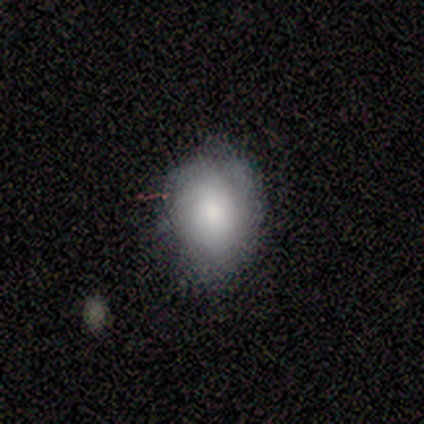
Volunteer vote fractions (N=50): A smooth galaxy with no disk features (62%) that is in between round and cigar-shaped (71%).

Vote fractions:
- Smooth or featured? smooth: 62% / featured or disk: 34% / star or artifact: 4%
- How rounded? in between: 71% / round: 29% / cigar-shaped: 0%
- Merging? none: 58% / minor disturbance: 29% / major disturbance: 8% / merger: 4%